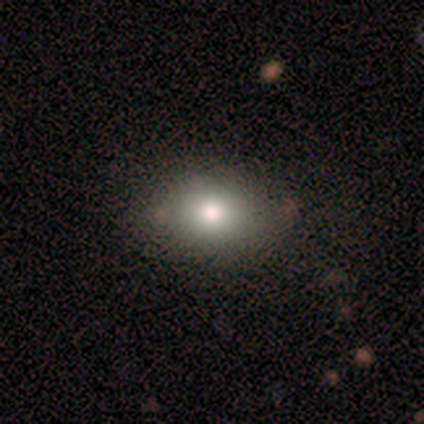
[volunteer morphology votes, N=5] type=smooth (80%); roundness=round (100%); merging=none (50%, tied with minor disturbance).